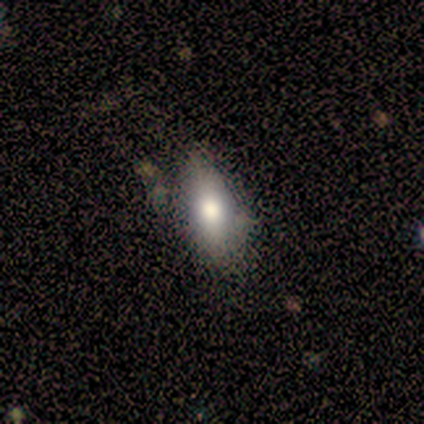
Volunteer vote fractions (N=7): Morphology: type=smooth (100%); roundness=in between (86%); merging=none (71%).